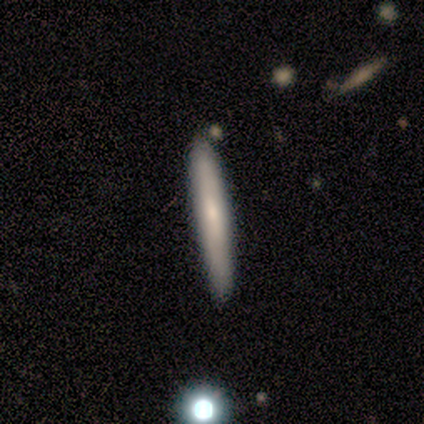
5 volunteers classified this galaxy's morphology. smooth 80%, featured or disk 20%, star or artifact 0%. Down the decision tree: how rounded — cigar-shaped (100%); merging — none (100%).